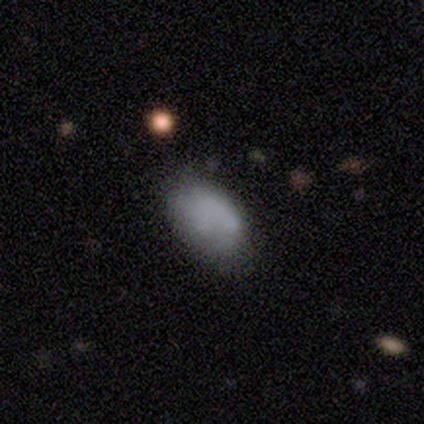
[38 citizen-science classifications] smooth_or_featured: smooth (p=0.82) [alt: featured or disk p=0.18]
how_rounded: in between (p=0.97) [alt: round p=0.03]
merging: none (p=0.58) [alt: minor disturbance p=0.32]